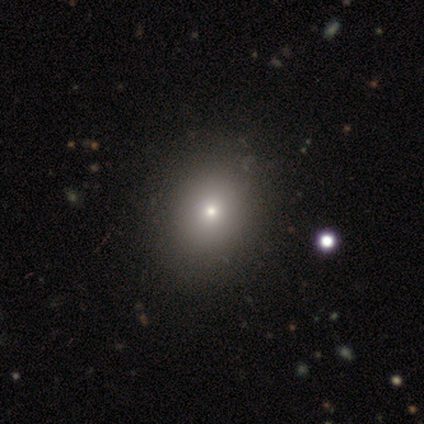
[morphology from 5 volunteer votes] This appears to be a smooth galaxy with no disk features (80%) that is round (75%). Merging: none (75%).